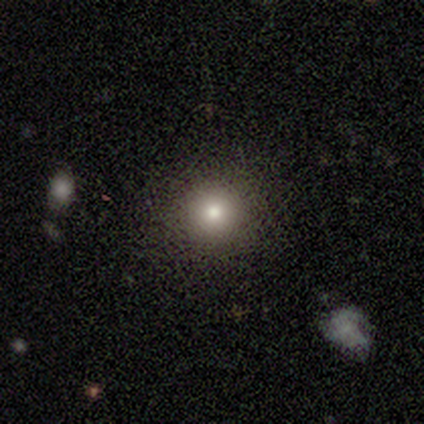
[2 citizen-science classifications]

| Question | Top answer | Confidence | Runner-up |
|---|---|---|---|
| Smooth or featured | smooth | 50% | tied: star or artifact (50%) |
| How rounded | round | 100% | — |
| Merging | none | 100% | — |